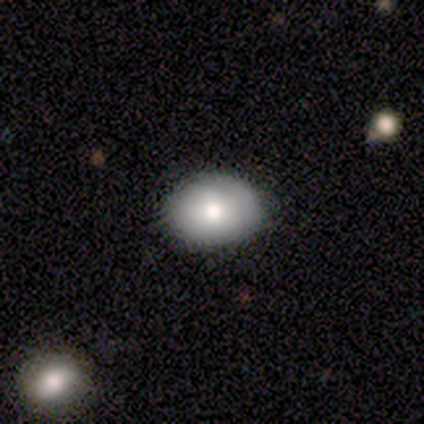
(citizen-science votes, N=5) This appears to be a smooth galaxy with no disk features (80%) that is in between round and cigar-shaped (75%). Merging: none (60%).